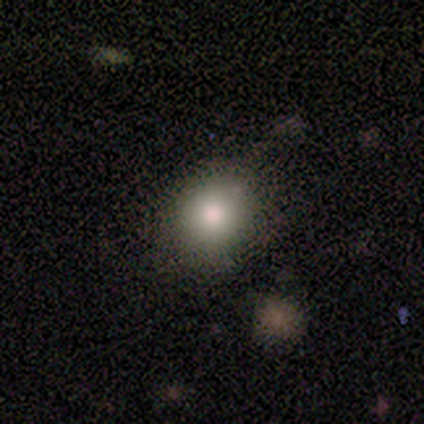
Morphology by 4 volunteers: Q: Smooth or featured?
A: smooth (50%); tied with: star or artifact (50%)
Q: How rounded?
A: round (100%)
Q: Merging?
A: none (100%)